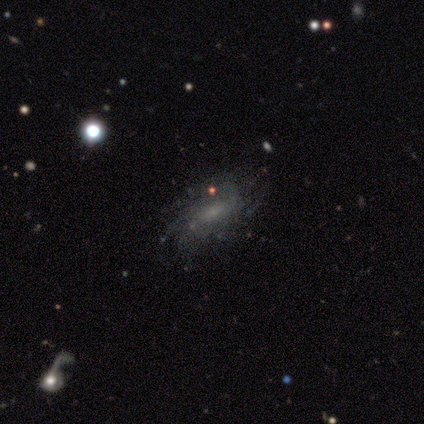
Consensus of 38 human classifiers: A featured or disk galaxy (74%) with no bar (56%), more than 4 (42%, tied with can't tell) tight (50%) spiral arms (89%) and a small central bulge (59%). Merging: none (83%).